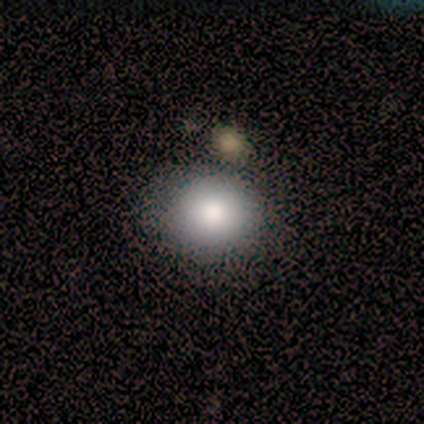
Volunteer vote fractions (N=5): Smooth or featured? 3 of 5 (60%) said smooth. How rounded? 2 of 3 (67%) said in between. Merging? 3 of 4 (75%) said none.